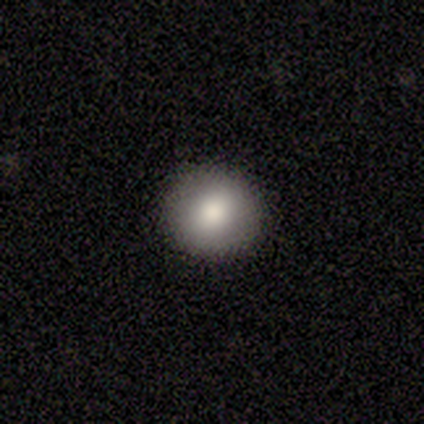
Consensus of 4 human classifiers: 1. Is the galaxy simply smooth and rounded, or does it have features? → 100% smooth, 0% featured or disk, 0% star or artifact.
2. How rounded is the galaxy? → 100% round, 0% in between, 0% cigar-shaped.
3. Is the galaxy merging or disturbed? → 100% none, 0% minor disturbance, 0% major disturbance, 0% merger.